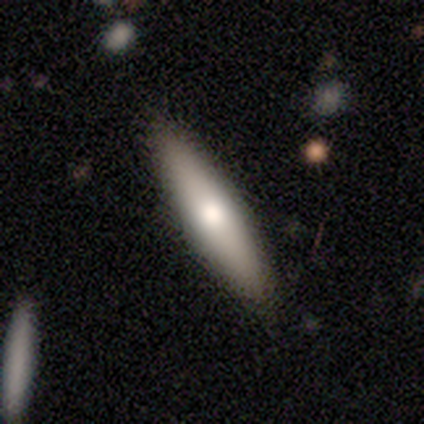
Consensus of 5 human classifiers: Smooth or featured? smooth (80%)
How rounded? cigar-shaped (75%)
Merging? none (100%)